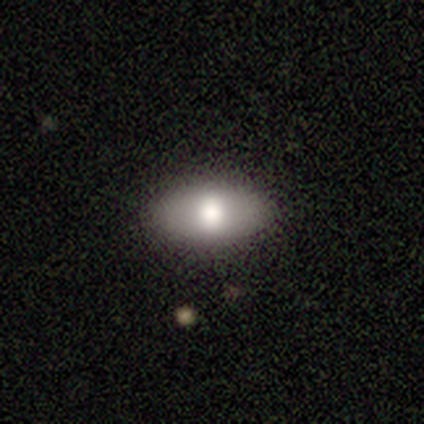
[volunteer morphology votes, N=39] A smooth galaxy with no disk features (79%) that is in between round and cigar-shaped (97%).

Vote fractions:
- Smooth or featured? smooth: 79% / featured or disk: 15% / star or artifact: 5%
- How rounded? in between: 97% / round: 3% / cigar-shaped: 0%
- Merging? none: 84% / minor disturbance: 14% / major disturbance: 3% / merger: 0%